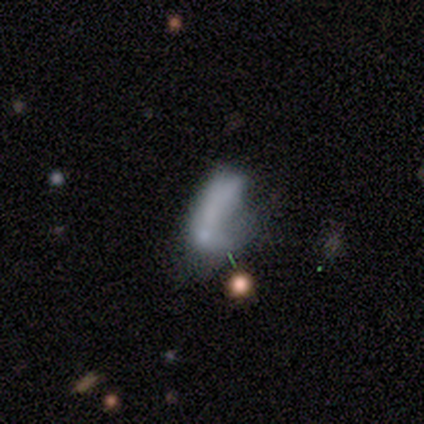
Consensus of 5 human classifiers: Volunteers were most divided on "merging" (4-way tie): none: 25%, minor disturbance: 25%, major disturbance: 25%, merger: 25%. More confident: smooth or featured — smooth (80%); how rounded — in between (75%).